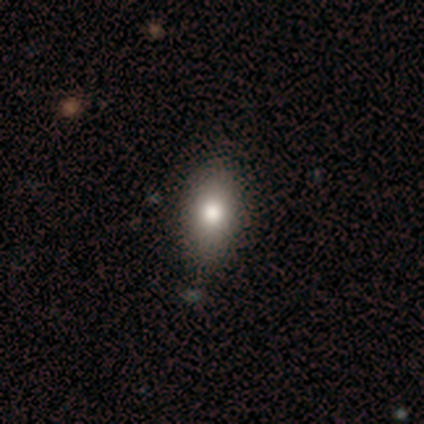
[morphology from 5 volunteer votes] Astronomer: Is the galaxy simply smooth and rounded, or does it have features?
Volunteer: smooth — 100%.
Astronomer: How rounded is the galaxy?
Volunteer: in between — 60%.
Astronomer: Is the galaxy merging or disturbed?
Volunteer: none — 80%.